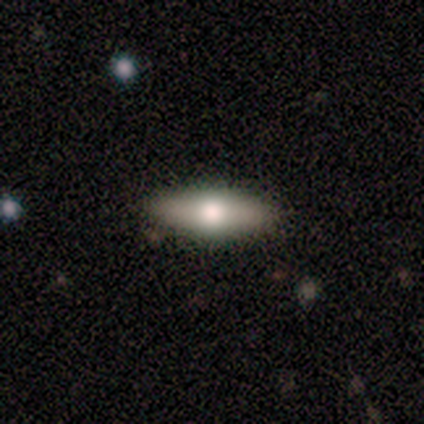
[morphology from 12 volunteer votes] Volunteers were most divided on "how rounded": in between: 62%, cigar-shaped: 38%, round: 0%. More confident: merging — none (83%); smooth or featured — smooth (67%).